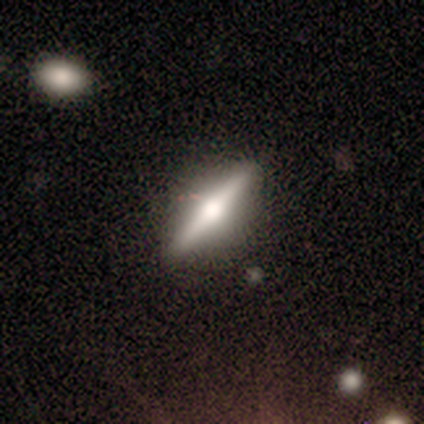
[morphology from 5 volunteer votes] A featured or disk galaxy (100%) viewed edge-on (100%) with a rounded central bulge (100%). Merging: none (80%).